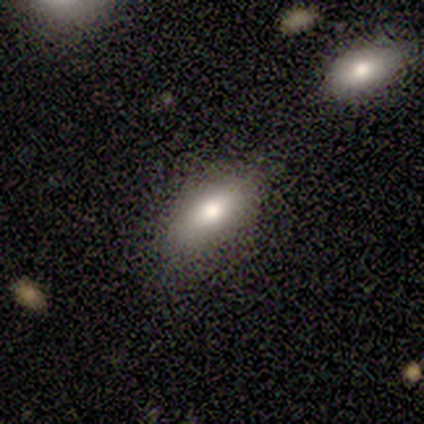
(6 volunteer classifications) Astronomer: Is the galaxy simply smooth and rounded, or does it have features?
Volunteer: smooth — 50% (runner-up: featured or disk, 33%).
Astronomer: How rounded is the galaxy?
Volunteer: in between — 100%.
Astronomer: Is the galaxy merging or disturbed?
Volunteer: none — 60%.